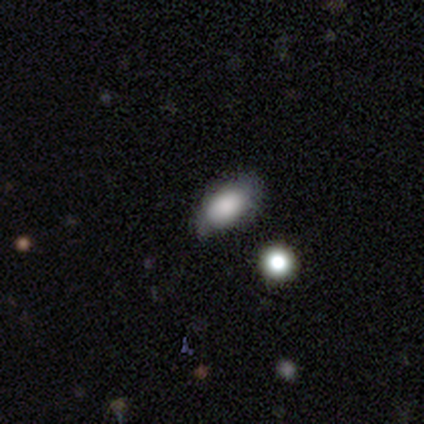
smooth 100%, featured or disk 0%, star or artifact 0%. Down the decision tree: how rounded — in between (75%); merging — none (50%, tied with minor disturbance).